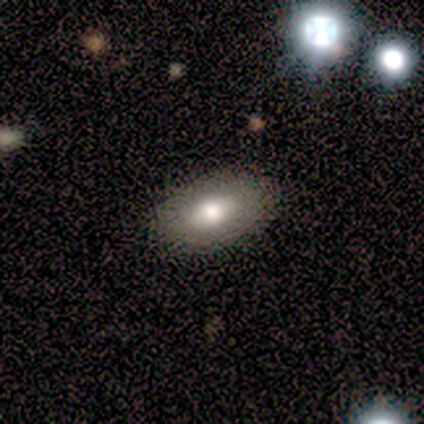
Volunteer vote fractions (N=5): Smooth or featured?
  - smooth: 80% *
  - star or artifact: 20%
  - featured or disk: 0%
How rounded?
  - in between: 100% *
  - round: 0%
  - cigar-shaped: 0%
Merging?
  - none: 100% *
  - minor disturbance: 0%
  - major disturbance: 0%
  - merger: 0%